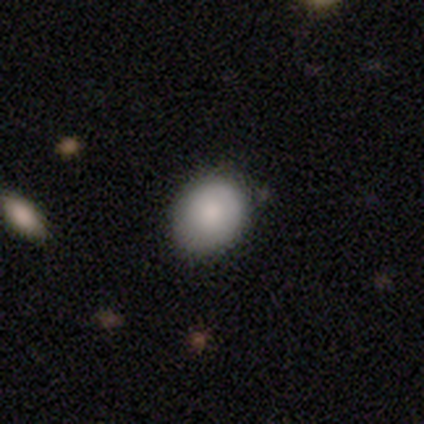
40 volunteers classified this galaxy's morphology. This is likely a smooth galaxy (68%). How rounded: possibly round (56%). Merging: clearly none (81%).